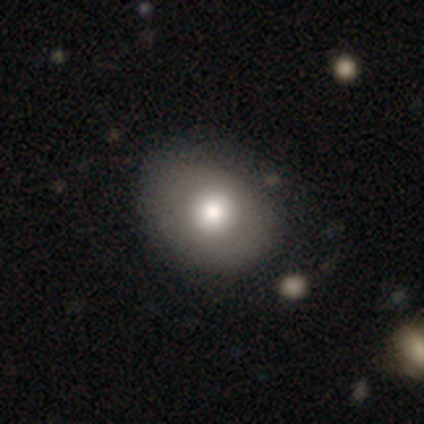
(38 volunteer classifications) smooth_or_featured: smooth (p=0.84) [alt: featured or disk p=0.13]
how_rounded: round (p=0.56) [alt: in between p=0.44]
merging: none (p=0.51) [alt: minor disturbance p=0.11]